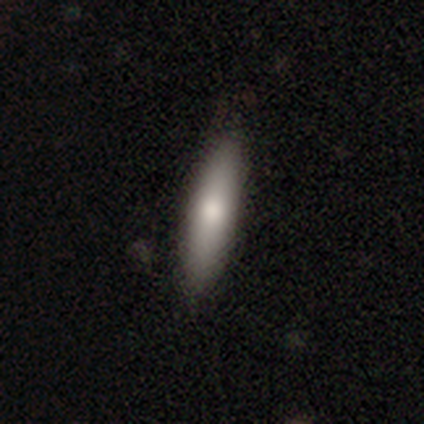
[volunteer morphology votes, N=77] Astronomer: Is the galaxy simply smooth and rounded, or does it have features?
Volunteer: smooth — 83%.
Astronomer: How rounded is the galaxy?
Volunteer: cigar-shaped — 72%.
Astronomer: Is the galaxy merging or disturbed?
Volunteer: none — 47%.